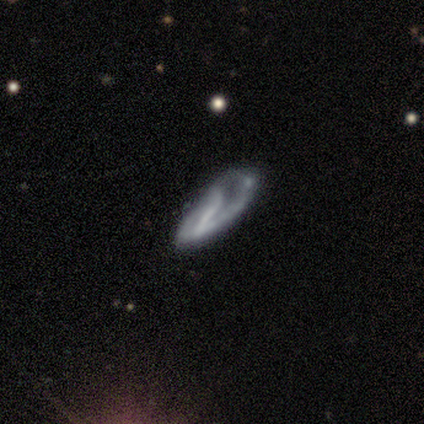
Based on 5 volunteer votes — Smooth or featured: featured or disk — 80% (smooth — 20%)
Edge-on disk: no — 75% (yes — 25%)
Bar: no — 67% (weak — 33%)
Spiral arms: yes — 100%
Spiral winding: tight — 33% (tied with medium — 33%; loose — 33%)
Spiral arm count: 1 — 33% (tied with 2 — 33%; can't tell — 33%)
Bulge size: none — 67% (small — 33%)
Merging: major disturbance — 60% (none — 20%)